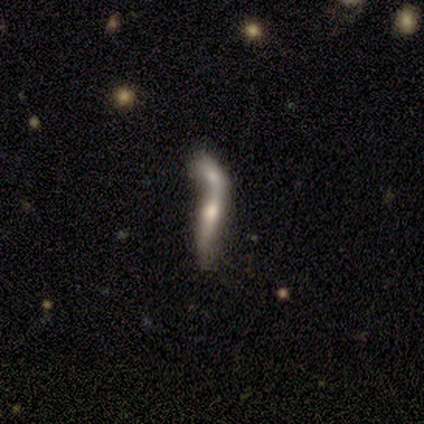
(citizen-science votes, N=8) A smooth galaxy with no disk features (50%, tied with featured or disk) that is in between round and cigar-shaped (50%, tied with cigar-shaped). Merging: merger (100%).